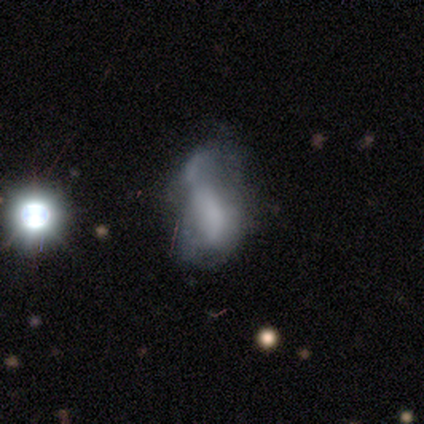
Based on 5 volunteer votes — Smooth or featured? featured or disk (40%, tied with star or artifact)
Edge-on disk? no (100%)
Bar? no (100%)
Spiral arms? yes (50%, tied with no)
Spiral winding? loose (100%)
Spiral arm count? can't tell (100%)
Bulge size? none (100%)
Merging? none (33%, tied with major disturbance and merger)